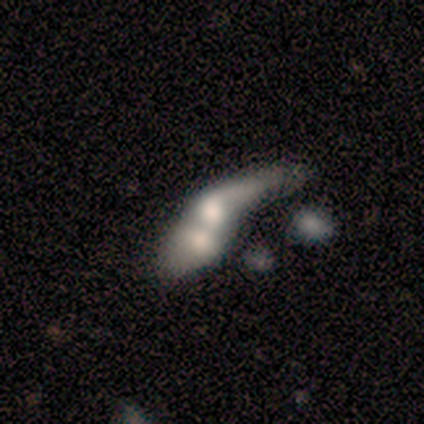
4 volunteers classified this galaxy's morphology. Smooth or featured: smooth — 50% (tied with featured or disk — 50%)
How rounded: round — 50% (tied with in between — 50%)
Merging: merger — 100%